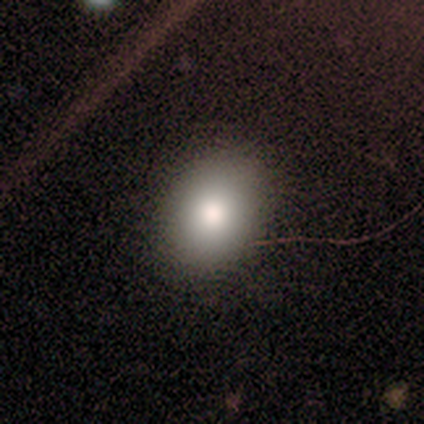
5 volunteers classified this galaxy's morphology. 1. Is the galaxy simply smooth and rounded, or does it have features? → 80% smooth, 20% featured or disk, 0% star or artifact.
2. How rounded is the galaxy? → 75% round, 25% in between, 0% cigar-shaped.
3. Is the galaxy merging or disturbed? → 100% none, 0% minor disturbance, 0% major disturbance, 0% merger.